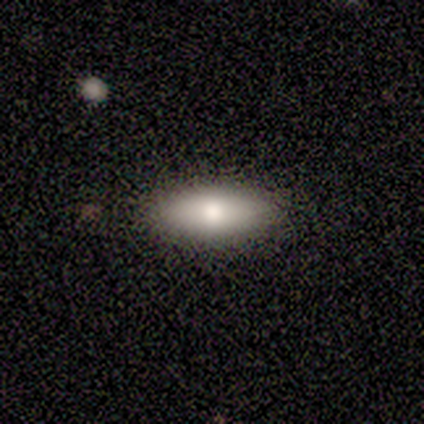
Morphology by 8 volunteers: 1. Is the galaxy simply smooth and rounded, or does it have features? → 75% smooth, 25% featured or disk, 0% star or artifact.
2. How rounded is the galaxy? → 67% in between, 17% round, 17% cigar-shaped.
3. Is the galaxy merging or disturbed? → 62% none, 25% minor disturbance, 12% major disturbance, 0% merger.